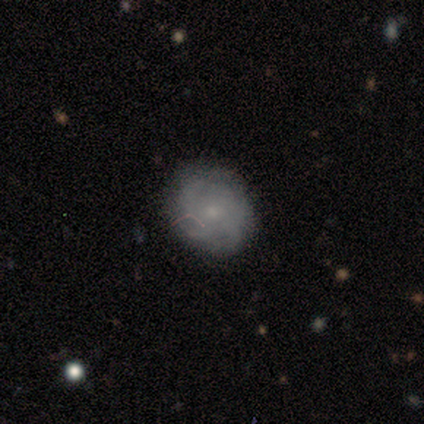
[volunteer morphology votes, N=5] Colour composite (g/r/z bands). It shows a smooth galaxy with no disk features (60%) that is in between round and cigar-shaped (67%). Merging: none (60%).